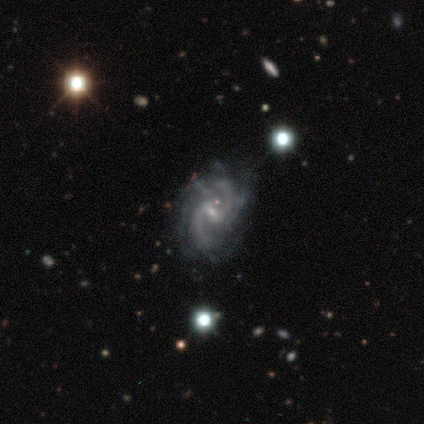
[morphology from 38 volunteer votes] featured or disk 95%, smooth 3%, star or artifact 3%. Down the decision tree: edge-on disk — no (97%); bar — weak (80%); spiral arms — yes (100%); spiral arm count — 2 (57%); spiral winding — medium (51%); bulge size — small (71%); merging — none (68%).